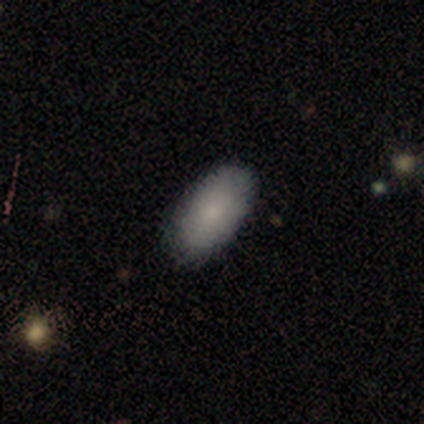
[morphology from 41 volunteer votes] Volunteers were most divided on "merging": none: 87%, minor disturbance: 10%, major disturbance: 3%, merger: 0%. More confident: how rounded — in between (94%); smooth or featured — smooth (88%).